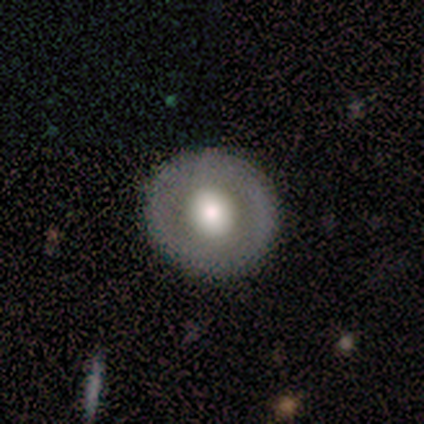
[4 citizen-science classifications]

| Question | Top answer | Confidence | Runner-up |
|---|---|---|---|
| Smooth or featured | smooth | 75% | featured or disk (25%) |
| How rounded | round | 100% | — |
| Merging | none | 100% | — |